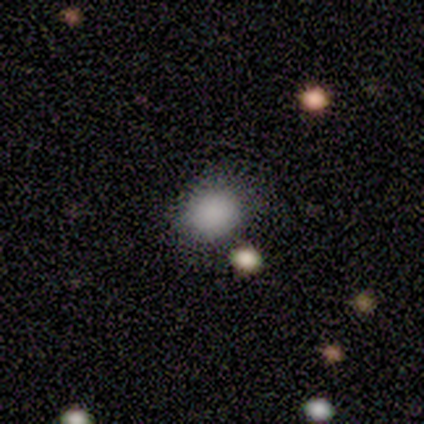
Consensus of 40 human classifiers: A smooth galaxy with no disk features (78%) that is round (58%).

Vote fractions:
- Smooth or featured? smooth: 78% / star or artifact: 18% / featured or disk: 5%
- How rounded? round: 58% / in between: 42% / cigar-shaped: 0%
- Merging? none: 82% / minor disturbance: 18% / major disturbance: 0% / merger: 0%